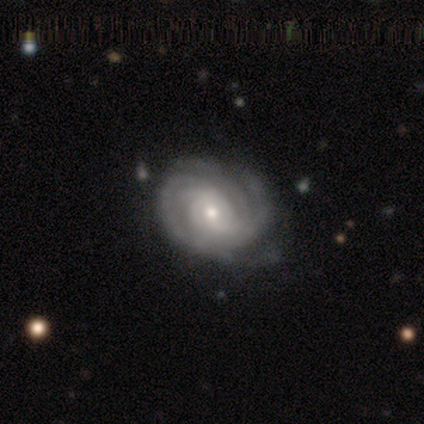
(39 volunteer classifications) Smooth or featured?
  - featured or disk: 92% *
  - star or artifact: 5%
  - smooth: 3%
Edge-on disk?
  - no: 100% *
  - yes: 0%
Bar?
  - no: 61% *
  - weak: 39%
  - strong: 0%
Spiral arms?
  - yes: 100% *
  - no: 0%
Spiral winding?
  - tight: 75% *
  - medium: 22%
  - loose: 3%
Spiral arm count?
  - 3: 31% * (tied)
  - can't tell: 31% * (tied)
  - 2: 19%
  - 4: 8%
  - more than 4: 8%
  - 1: 3%
Bulge size?
  - moderate: 58% *
  - small: 31%
  - large: 6%
  - none: 6%
  - dominant: 0%
Merging?
  - none: 43% *
  - minor disturbance: 11%
  - major disturbance: 0%
  - merger: 0%